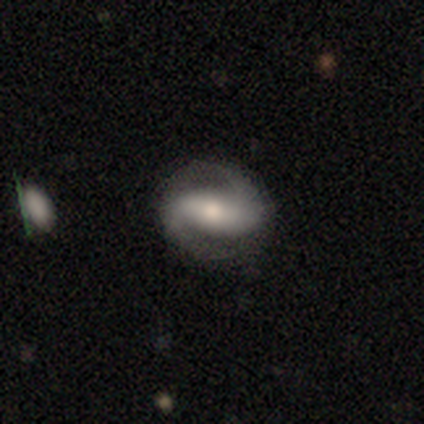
Volunteers were most divided on "bar": no: 67%, strong: 33%, weak: 0%. More confident: edge-on disk — no (100%); spiral arms — yes (100%); smooth or featured — featured or disk (75%); merging — none (75%); spiral winding — medium (67%); spiral arm count — 2 (67%); bulge size — moderate (67%).